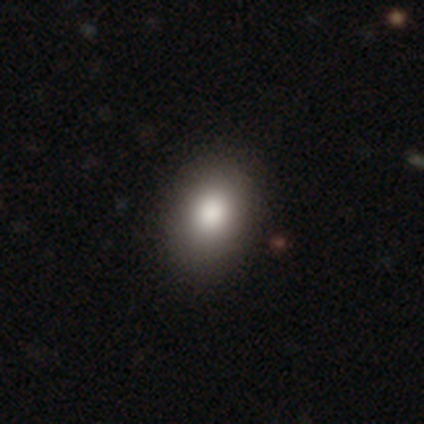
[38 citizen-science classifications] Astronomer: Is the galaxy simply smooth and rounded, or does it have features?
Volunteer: smooth — 87%.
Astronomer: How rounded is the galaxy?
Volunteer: in between — 76%.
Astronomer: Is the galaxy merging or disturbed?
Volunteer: none — 91%.